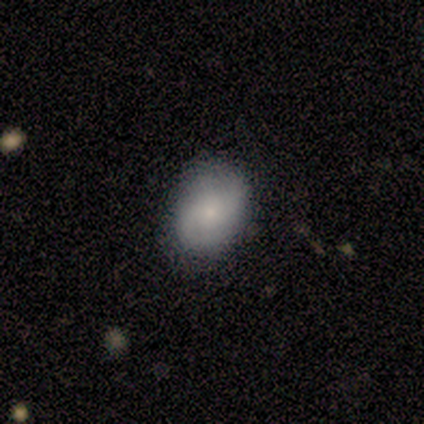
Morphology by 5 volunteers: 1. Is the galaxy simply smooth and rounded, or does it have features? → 100% smooth, 0% featured or disk, 0% star or artifact.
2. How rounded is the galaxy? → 80% in between, 20% round, 0% cigar-shaped.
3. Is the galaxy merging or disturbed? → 60% none, 40% minor disturbance, 0% major disturbance, 0% merger.